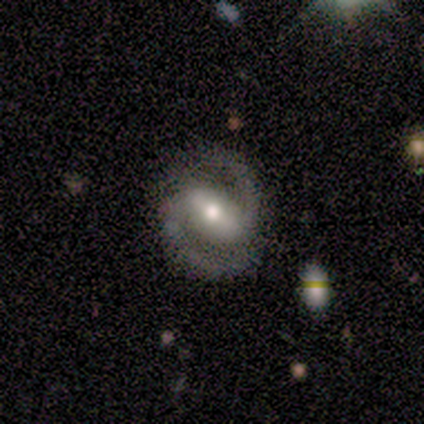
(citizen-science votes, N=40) Smooth or featured? featured or disk (90%)
Edge-on disk? no (100%)
Bar? strong (67%)
Spiral arms? yes (94%)
Spiral winding? medium (56%)
Spiral arm count? 2 (94%)
Bulge size? moderate (64%)
Merging? none (79%)